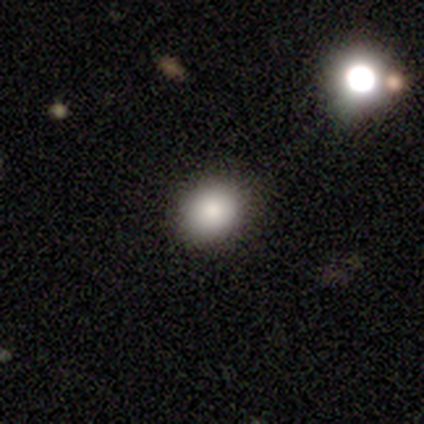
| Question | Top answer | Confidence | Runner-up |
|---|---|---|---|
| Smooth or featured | smooth | 100% | — |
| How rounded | round | 60% | in between (40%) |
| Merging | none | 80% | minor disturbance (20%) |